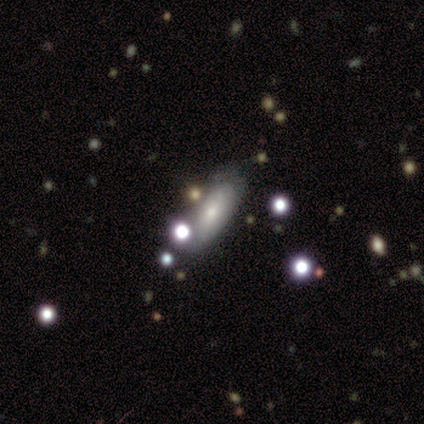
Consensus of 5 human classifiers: A smooth galaxy with no disk features (60%) that is in between round and cigar-shaped (67%).

Vote fractions:
- Smooth or featured? smooth: 60% / featured or disk: 40% / star or artifact: 0%
- How rounded? in between: 67% / cigar-shaped: 33% / round: 0%
- Merging? minor disturbance: 60% / major disturbance: 40% / none: 0% / merger: 0%